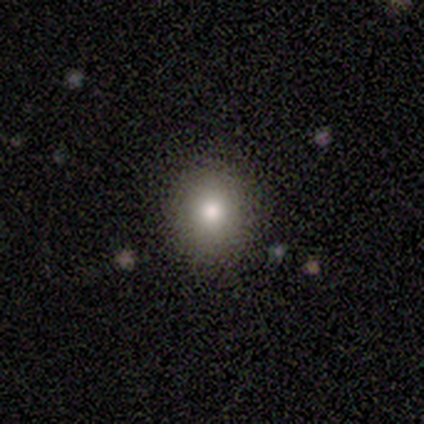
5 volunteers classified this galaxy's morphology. Smooth or featured?
  - smooth: 80% *
  - featured or disk: 20%
  - star or artifact: 0%
How rounded?
  - round: 75% *
  - in between: 25%
  - cigar-shaped: 0%
Merging?
  - none: 100% *
  - minor disturbance: 0%
  - major disturbance: 0%
  - merger: 0%